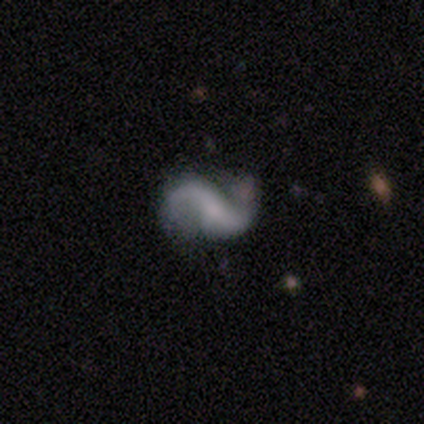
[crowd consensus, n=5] Volunteers were most divided on "bar" (2-way tie): weak: 40%, no: 40%, strong: 20%; "bulge size" (2-way tie): small: 40%, none: 40%, moderate: 20%, dominant: 0%, large: 0%. More confident: smooth or featured — featured or disk (100%); edge-on disk — no (100%); spiral arms — yes (100%); spiral arm count — 2 (100%); spiral winding — loose (80%); merging — none (80%).